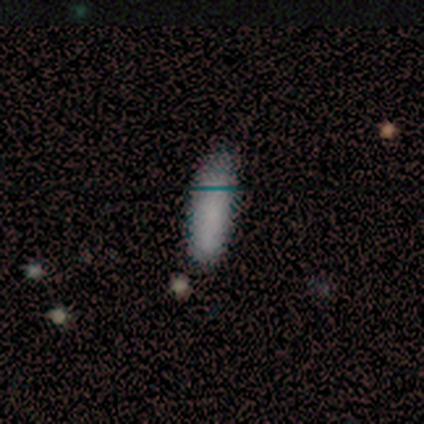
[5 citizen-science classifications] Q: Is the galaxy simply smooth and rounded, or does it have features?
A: smooth — 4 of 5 (80%).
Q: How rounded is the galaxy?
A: cigar-shaped — 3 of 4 (75%).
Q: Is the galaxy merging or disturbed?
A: none — 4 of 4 (100%).